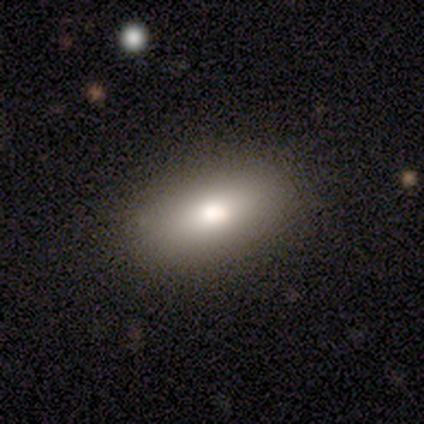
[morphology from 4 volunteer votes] type=smooth (100%); roundness=in between (75%); merging=none (75%).